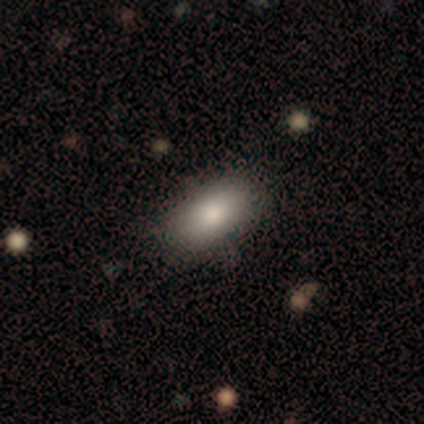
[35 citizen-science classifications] A smooth galaxy with no disk features (83%) that is in between round and cigar-shaped (100%).

Vote fractions:
- Smooth or featured? smooth: 83% / featured or disk: 14% / star or artifact: 3%
- How rounded? in between: 100% / round: 0% / cigar-shaped: 0%
- Merging? none: 82% / minor disturbance: 15% / major disturbance: 3% / merger: 0%